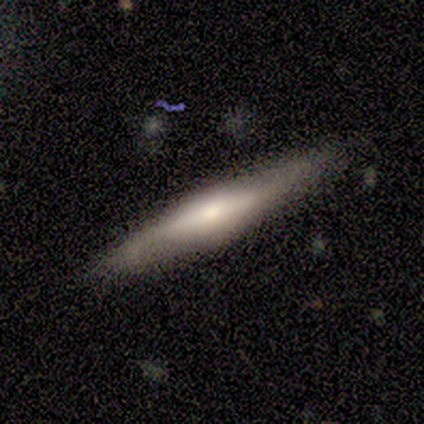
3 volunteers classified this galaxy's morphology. Overall: featured or disk (67%; smooth 33%). Edge-on disk: yes (100%). Edge-on bulge: rounded (100%). Merging: none (100%).